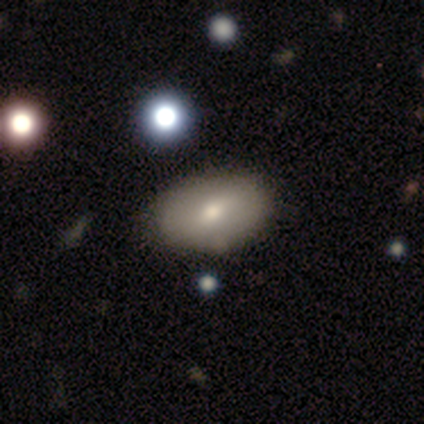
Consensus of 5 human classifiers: Smooth or featured? 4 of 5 (80%) said smooth. How rounded? 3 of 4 (75%) said in between. Merging? 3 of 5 (60%) said none.